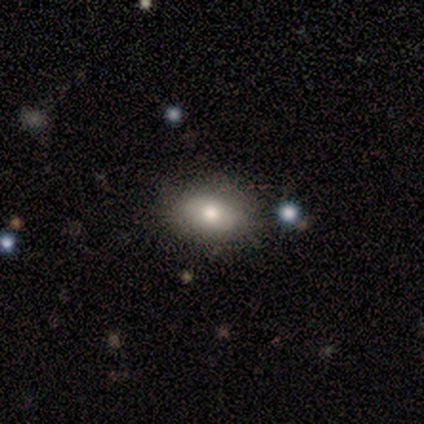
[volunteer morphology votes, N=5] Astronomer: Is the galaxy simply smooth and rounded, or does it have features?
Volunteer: smooth — 80%.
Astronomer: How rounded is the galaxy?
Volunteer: in between — 100%.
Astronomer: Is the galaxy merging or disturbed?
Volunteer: none — 100%.